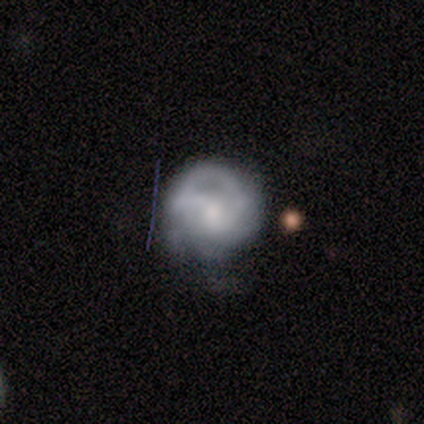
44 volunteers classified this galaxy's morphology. Q: Smooth or featured?
A: featured or disk (57%); runner-up: smooth (41%)
Q: Edge-on disk?
A: no (100%)
Q: Bar?
A: no (56%); runner-up: weak (36%)
Q: Spiral arms?
A: yes (72%); runner-up: no (28%)
Q: Spiral winding?
A: tight (56%); runner-up: medium (33%)
Q: Spiral arm count?
A: can't tell (56%); runner-up: 3 (17%)
Q: Bulge size?
A: moderate (48%); runner-up: none (24%)
Q: Merging?
A: none (42%); runner-up: minor disturbance (30%)